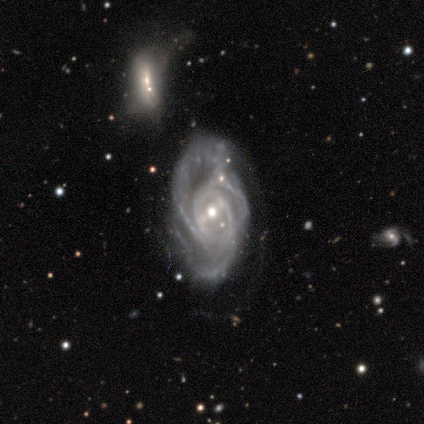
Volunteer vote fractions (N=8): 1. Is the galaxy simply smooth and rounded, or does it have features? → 88% featured or disk, 12% star or artifact, 0% smooth.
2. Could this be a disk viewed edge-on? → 100% no, 0% yes.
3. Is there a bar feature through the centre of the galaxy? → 43% no, 29% strong, 29% weak.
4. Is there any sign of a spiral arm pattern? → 71% yes, 29% no.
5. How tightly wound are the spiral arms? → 60% tight, 20% medium, 20% loose.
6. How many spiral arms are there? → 40% 3 (tied), 40% can't tell (tied), 20% 2, 0% 1, 0% 4, 0% more than 4.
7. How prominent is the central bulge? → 57% small, 29% moderate, 14% large, 0% dominant, 0% none.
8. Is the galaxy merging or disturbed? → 43% minor disturbance, 29% none, 14% major disturbance, 14% merger.